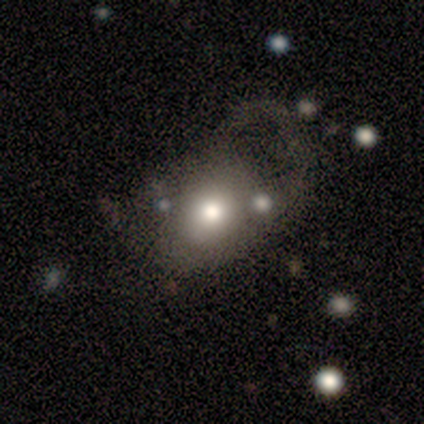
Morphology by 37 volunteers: smooth_or_featured: smooth (p=0.68) [alt: featured or disk p=0.22]
how_rounded: round (p=0.64) [alt: in between p=0.36]
merging: major disturbance (p=0.55) [alt: none p=0.18]